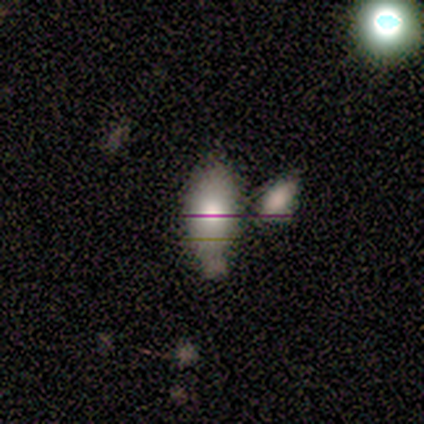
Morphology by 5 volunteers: smooth 100%, featured or disk 0%, star or artifact 0%. Down the decision tree: how rounded — in between (100%); merging — merger (80%).